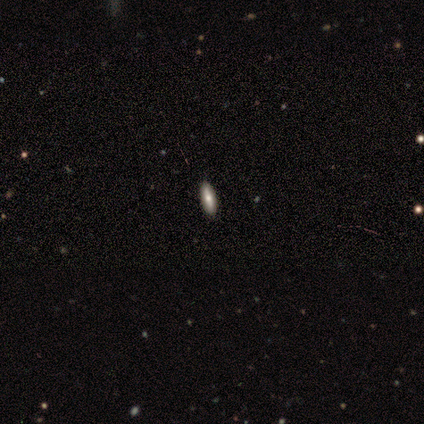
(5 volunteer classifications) smooth_or_featured: featured or disk (p=0.60) [alt: smooth p=0.40]
disk_edge_on: yes (p=0.67) [alt: no p=0.33]
edge_on_bulge: none (p=0.50) [tied with: rounded p=0.50]
merging: none (p=1.00)